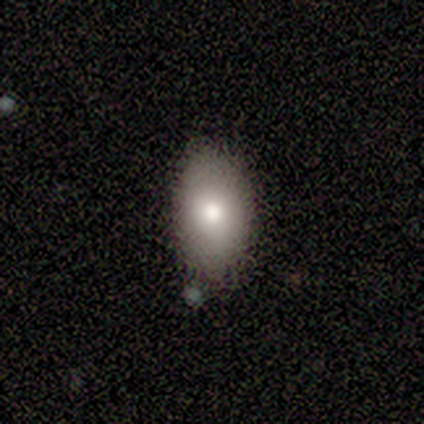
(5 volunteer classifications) smooth-or-featured: smooth: 80% | star or artifact: 20% | featured or disk: 0%
  how-rounded: in between: 100% | round: 0% | cigar-shaped: 0%
  merging: none: 100% | minor disturbance: 0% | major disturbance: 0% | merger: 0%